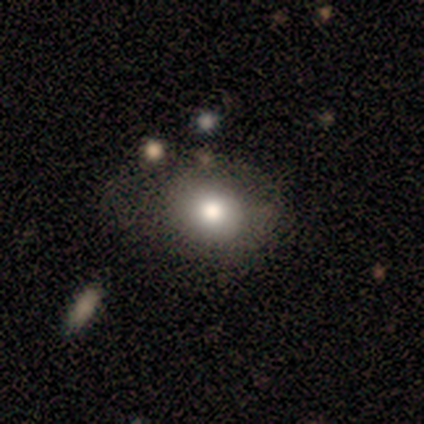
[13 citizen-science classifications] Morphology: type=smooth (54%); roundness=in between (71%); merging=none (67%).